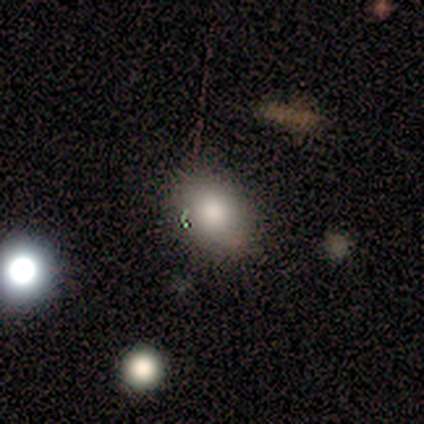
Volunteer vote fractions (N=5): smooth-or-featured: smooth: 100% | featured or disk: 0% | star or artifact: 0%
  how-rounded: round: 60% | in between: 40% | cigar-shaped: 0%
  merging: none: 100% | minor disturbance: 0% | major disturbance: 0% | merger: 0%